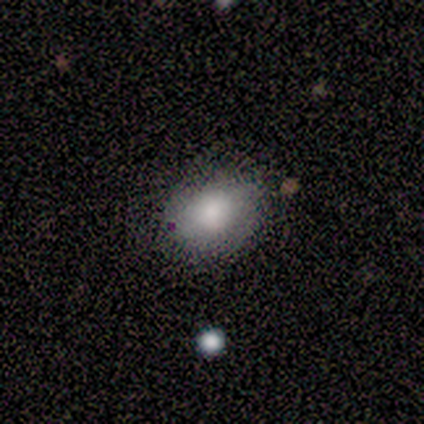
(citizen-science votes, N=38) Smooth or featured? 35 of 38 (92%) said smooth. How rounded? 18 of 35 (51%) said in between. Merging? 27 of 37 (73%) said none.